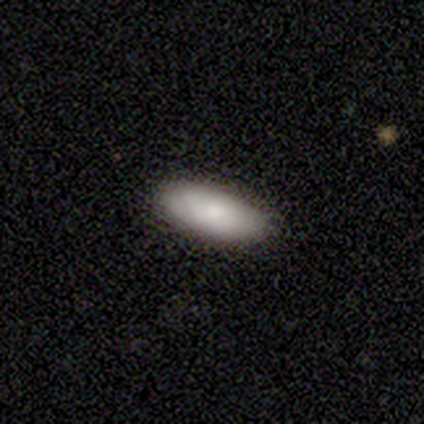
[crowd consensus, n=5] A smooth galaxy with no disk features (100%) that is in between round and cigar-shaped (100%). Merging: none (100%).